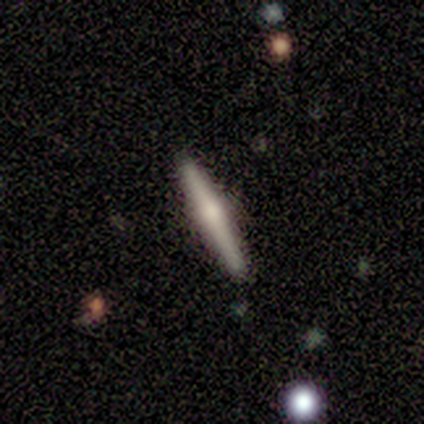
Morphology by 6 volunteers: A featured or disk galaxy (83%) viewed edge-on (100%) with a rounded central bulge (100%).

Vote fractions:
- Smooth or featured? featured or disk: 83% / smooth: 17% / star or artifact: 0%
- Edge-on disk? yes: 100% / no: 0%
- Edge-on bulge? rounded: 100% / boxy: 0% / none: 0%
- Merging? none: 100% / minor disturbance: 0% / major disturbance: 0% / merger: 0%